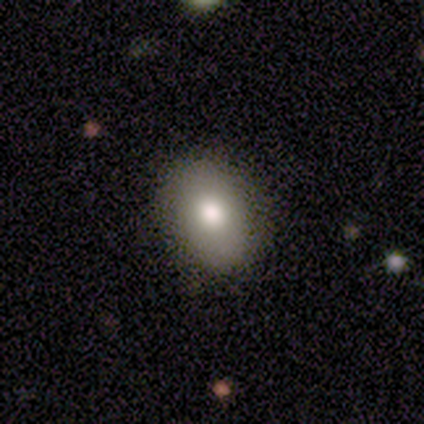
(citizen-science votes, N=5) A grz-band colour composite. It shows a smooth galaxy with no disk features (80%) that is in between round and cigar-shaped (75%). Merging: none (100%).